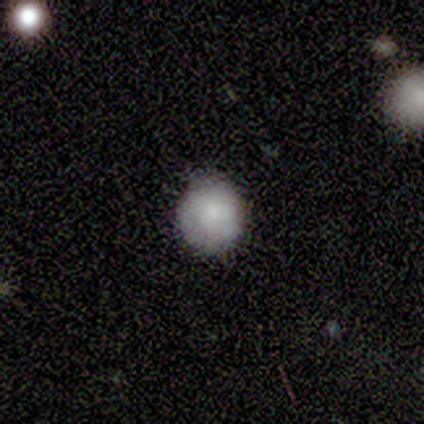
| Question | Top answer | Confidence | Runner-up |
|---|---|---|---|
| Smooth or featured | smooth | 80% | featured or disk (20%) |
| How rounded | round | 75% | in between (25%) |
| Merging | none | 80% | major disturbance (20%) |